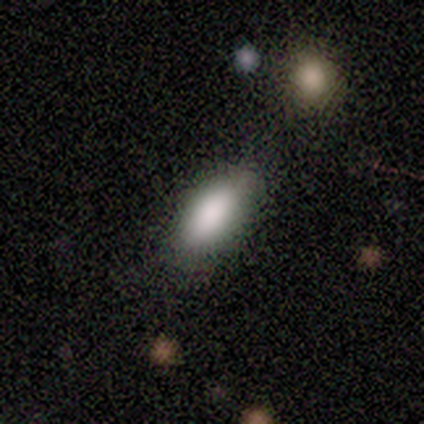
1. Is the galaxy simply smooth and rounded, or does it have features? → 91% smooth, 9% star or artifact, 0% featured or disk.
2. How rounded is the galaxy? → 90% in between, 10% cigar-shaped, 0% round.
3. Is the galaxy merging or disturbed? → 60% none, 30% minor disturbance, 10% major disturbance, 0% merger.